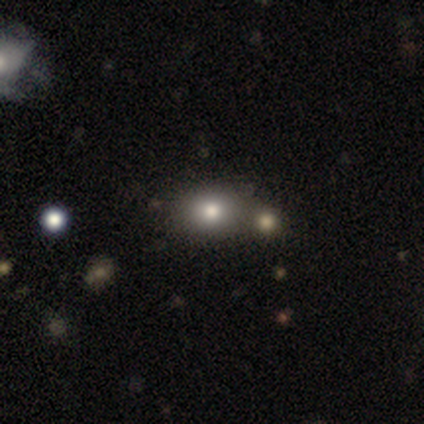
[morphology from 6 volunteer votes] Volunteers were most divided on "merging": merger: 50%, none: 33%, major disturbance: 17%, minor disturbance: 0%. More confident: smooth or featured — smooth (83%); how rounded — round (60%).